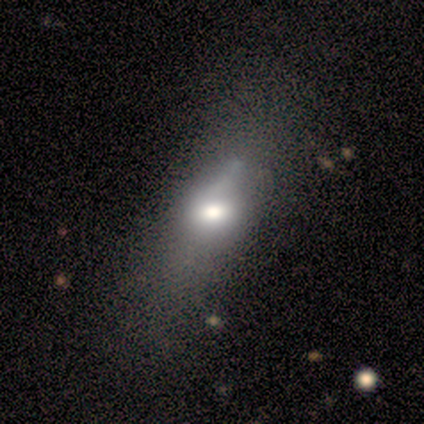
This appears to be a smooth galaxy with no disk features (75%) that is in between round and cigar-shaped (100%). Merging: none (50%).